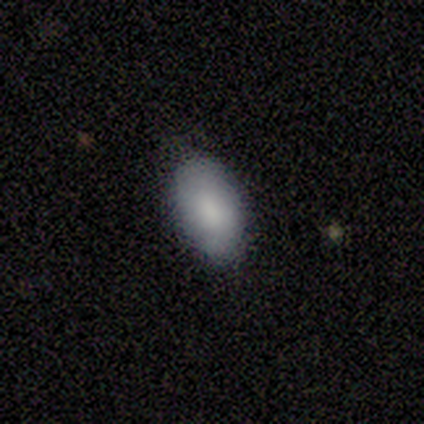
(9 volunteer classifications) Smooth or featured?
  - smooth: 100% *
  - featured or disk: 0%
  - star or artifact: 0%
How rounded?
  - in between: 100% *
  - round: 0%
  - cigar-shaped: 0%
Merging?
  - none: 78% *
  - minor disturbance: 22%
  - major disturbance: 0%
  - merger: 0%